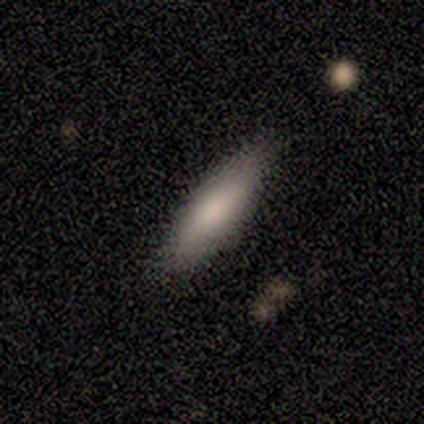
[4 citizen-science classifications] Smooth or featured: smooth — 100%
How rounded: in between — 75% (cigar-shaped — 25%)
Merging: none — 100%